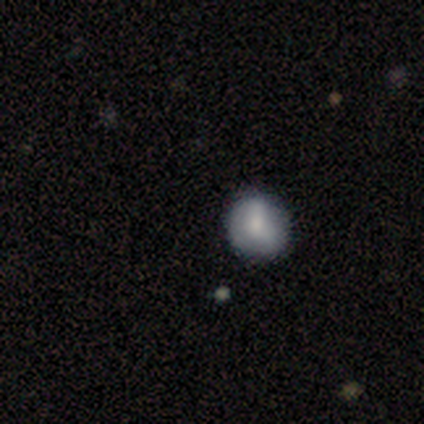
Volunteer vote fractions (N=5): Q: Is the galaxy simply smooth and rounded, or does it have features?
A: smooth — 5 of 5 (100%).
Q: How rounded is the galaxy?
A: round — 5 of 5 (100%).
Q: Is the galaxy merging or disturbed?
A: none — 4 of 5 (80%).